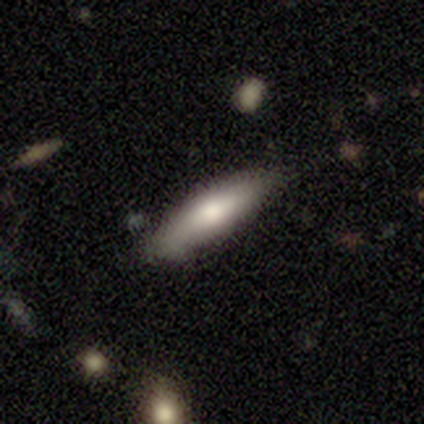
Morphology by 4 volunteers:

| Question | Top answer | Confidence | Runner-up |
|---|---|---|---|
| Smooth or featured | smooth | 75% | featured or disk (25%) |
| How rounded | in between | 67% | cigar-shaped (33%) |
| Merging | none | 75% | minor disturbance (25%) |